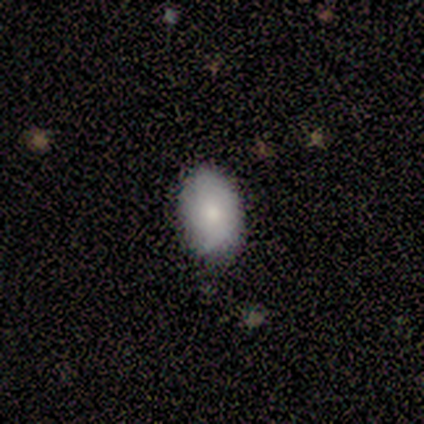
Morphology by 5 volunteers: This appears to be a smooth galaxy with no disk features (100%) that is in between round and cigar-shaped (100%). Merging: none (100%).